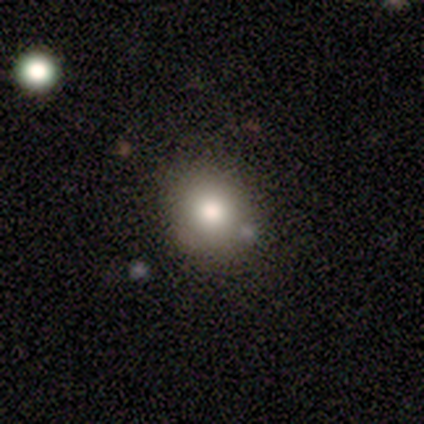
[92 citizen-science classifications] A smooth galaxy with no disk features (72%) that is round (74%).

Vote fractions:
- Smooth or featured? smooth: 72% / star or artifact: 17% / featured or disk: 11%
- How rounded? round: 74% / in between: 26% / cigar-shaped: 0%
- Merging? none: 82% / minor disturbance: 16% / major disturbance: 1% / merger: 1%